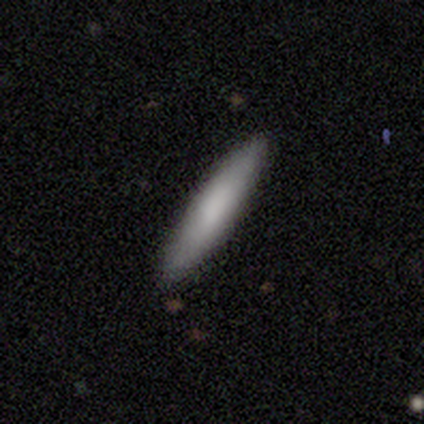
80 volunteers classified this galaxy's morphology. type=smooth (81%); roundness=cigar-shaped (94%); merging=none (53%).